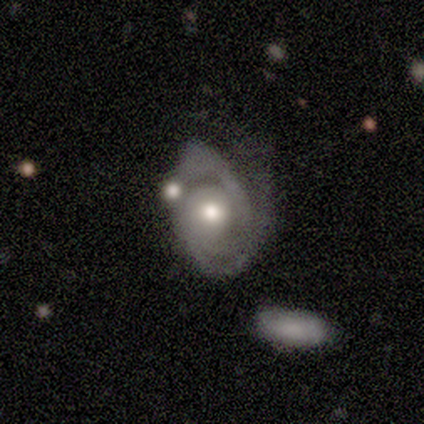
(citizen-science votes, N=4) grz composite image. It shows a featured or disk galaxy (100%) with no bar (50%), 3 (50%, tied with can't tell) tight (100%) spiral arms (50%, tied with no) and a moderate central bulge (75%). Merging: none (75%).